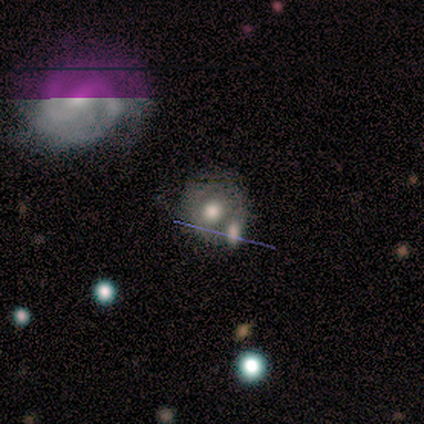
smooth_or_featured: smooth (p=0.50) [alt: featured or disk p=0.25]
how_rounded: round (p=1.00)
merging: none (p=0.33) [tied with: minor disturbance p=0.33, merger p=0.33]